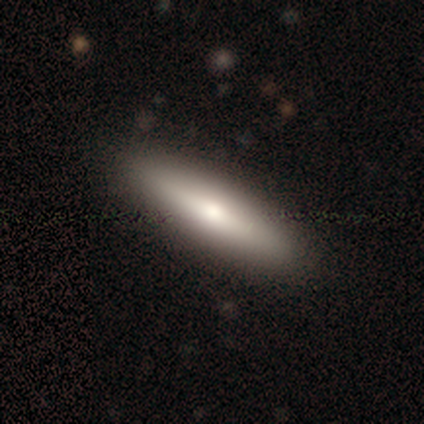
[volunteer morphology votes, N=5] This is likely a smooth galaxy (60%). How rounded: clearly cigar-shaped (100%). Merging: clearly none (100%).